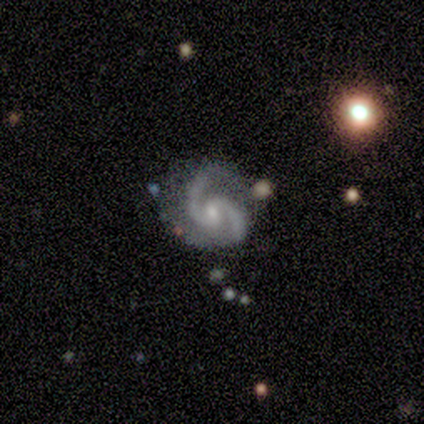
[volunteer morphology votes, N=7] Smooth or featured: featured or disk — 86% (star or artifact — 14%)
Edge-on disk: no — 100%
Bar: no — 50% (weak — 33%)
Spiral arms: yes — 100%
Spiral winding: medium — 50% (tight — 33%)
Spiral arm count: 2 — 100%
Bulge size: moderate — 50% (small — 33%)
Merging: none — 50% (tied with minor disturbance — 50%)